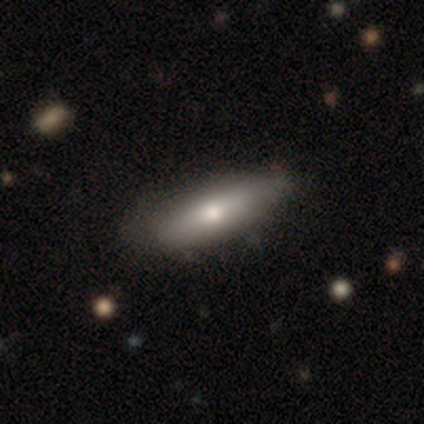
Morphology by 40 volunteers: Smooth or featured?
  - smooth: 60% *
  - featured or disk: 40%
  - star or artifact: 0%
How rounded?
  - in between: 58% *
  - cigar-shaped: 33%
  - round: 8%
Merging?
  - none: 57% *
  - minor disturbance: 10%
  - merger: 2%
  - major disturbance: 0%